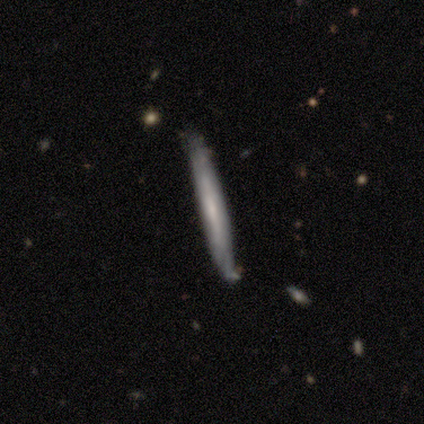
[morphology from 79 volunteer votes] smooth_or_featured: featured or disk (p=0.52) [alt: smooth p=0.47]
disk_edge_on: yes (p=0.85) [alt: no p=0.15]
edge_on_bulge: none (p=0.74) [alt: rounded p=0.20]
merging: none (p=0.33) [alt: minor disturbance p=0.12]